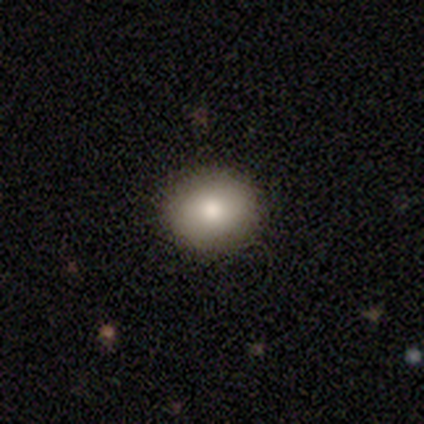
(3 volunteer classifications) This appears to be a smooth galaxy with no disk features (67%) that is round (100%). Merging: none (50%, tied with minor disturbance).